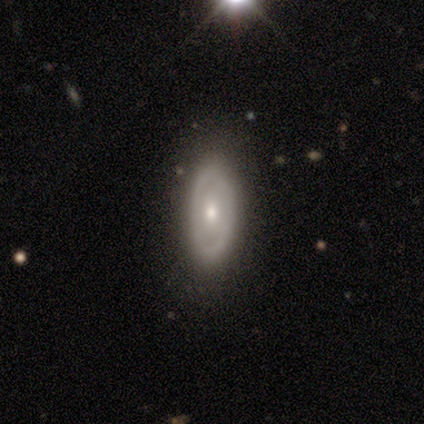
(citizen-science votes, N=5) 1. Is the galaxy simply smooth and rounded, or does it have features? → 60% smooth, 20% featured or disk, 20% star or artifact.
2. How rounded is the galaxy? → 67% in between, 33% cigar-shaped, 0% round.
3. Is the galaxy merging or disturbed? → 75% none, 25% minor disturbance, 0% major disturbance, 0% merger.